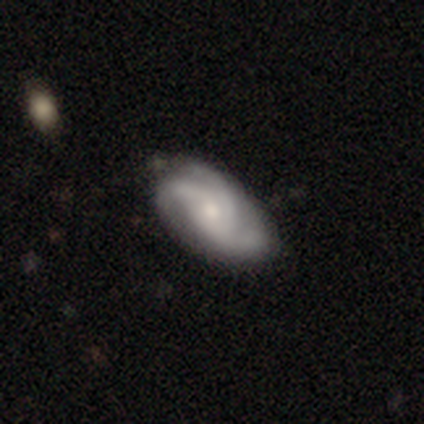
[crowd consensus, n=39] A featured or disk galaxy (87%) with no bar (88%), 3 (83%) medium (57%) spiral arms (91%) and a moderate central bulge (48%). Merging: none (49%).